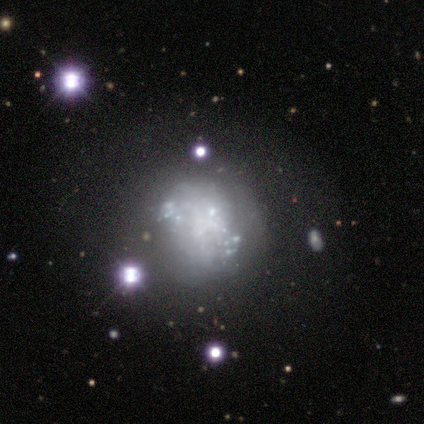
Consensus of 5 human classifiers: This appears to be a featured or disk galaxy (60%) with no bar (100%), no spiral arms (100%) and no central bulge (67%). Merging: none (40%).